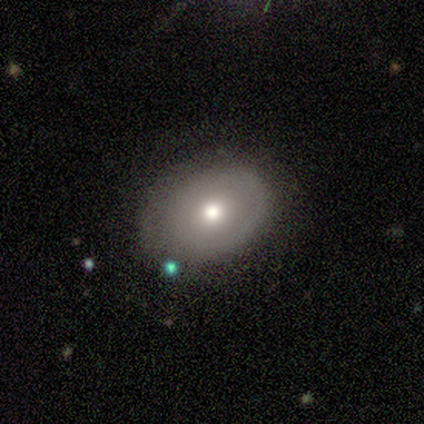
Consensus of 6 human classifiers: Smooth or featured: smooth — 83% (star or artifact — 17%)
How rounded: in between — 80% (round — 20%)
Merging: none — 80% (minor disturbance — 20%)